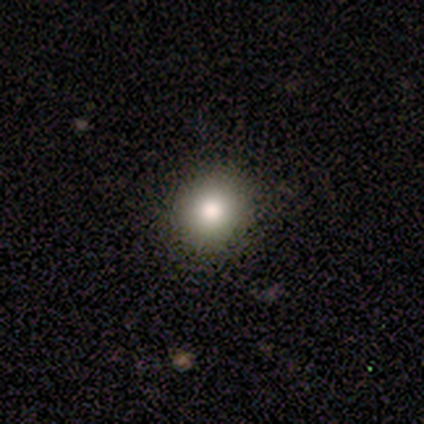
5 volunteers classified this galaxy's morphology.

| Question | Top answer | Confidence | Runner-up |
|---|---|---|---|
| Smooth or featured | smooth | 80% | featured or disk (20%) |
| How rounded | round | 75% | in between (25%) |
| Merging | none | 60% | minor disturbance (40%) |